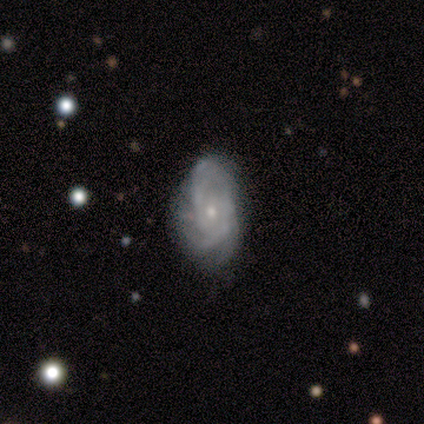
Smooth or featured? 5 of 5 (100%) said featured or disk. Edge-on disk? 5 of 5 (100%) said no. Bar? 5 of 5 (100%) said no. Spiral arms? 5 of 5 (100%) said yes. Spiral winding? 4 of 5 (80%) said tight. Spiral arm count? 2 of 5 (40%) said can't tell. Bulge size? 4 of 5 (80%) said small. Merging? 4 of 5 (80%) said none.